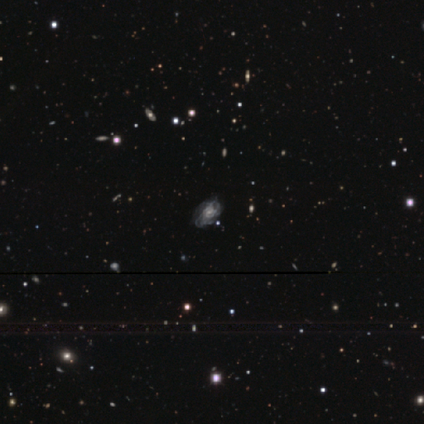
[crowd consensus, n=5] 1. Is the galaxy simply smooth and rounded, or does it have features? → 100% featured or disk, 0% smooth, 0% star or artifact.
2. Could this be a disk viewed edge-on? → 80% no, 20% yes.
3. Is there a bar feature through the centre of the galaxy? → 75% no, 25% weak, 0% strong.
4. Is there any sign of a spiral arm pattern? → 75% yes, 25% no.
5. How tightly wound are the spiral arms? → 33% tight (tied), 33% medium (tied), 33% loose (tied).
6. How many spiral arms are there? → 100% can't tell, 0% 1, 0% 2, 0% 3, 0% 4, 0% more than 4.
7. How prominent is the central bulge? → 50% moderate (tied), 50% small (tied), 0% dominant, 0% large, 0% none.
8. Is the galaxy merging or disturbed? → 60% none, 20% minor disturbance, 20% major disturbance, 0% merger.